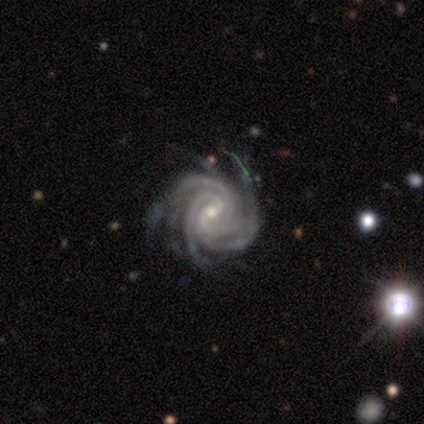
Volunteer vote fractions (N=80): Smooth or featured?
  - featured or disk: 95% *
  - star or artifact: 5%
  - smooth: 0%
Edge-on disk?
  - no: 99% *
  - yes: 1%
Bar?
  - weak: 60% *
  - no: 27%
  - strong: 13%
Spiral arms?
  - yes: 100% *
  - no: 0%
Spiral winding?
  - tight: 73% *
  - medium: 23%
  - loose: 4%
Spiral arm count?
  - 4: 39% *
  - more than 4: 36%
  - 3: 17%
  - can't tell: 8%
  - 1: 0%
  - 2: 0%
Bulge size?
  - small: 71% *
  - moderate: 28%
  - large: 1%
  - dominant: 0%
  - none: 0%
Merging?
  - none: 33% *
  - minor disturbance: 16%
  - major disturbance: 4%
  - merger: 1%